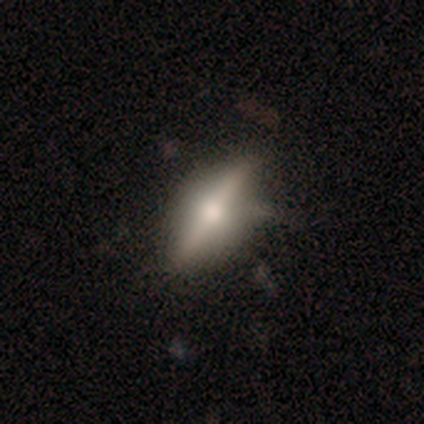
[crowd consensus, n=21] Smooth or featured: featured or disk — 62% (smooth — 33%)
Edge-on disk: yes — 100%
Edge-on bulge: rounded — 100%
Merging: none — 75% (minor disturbance — 25%)